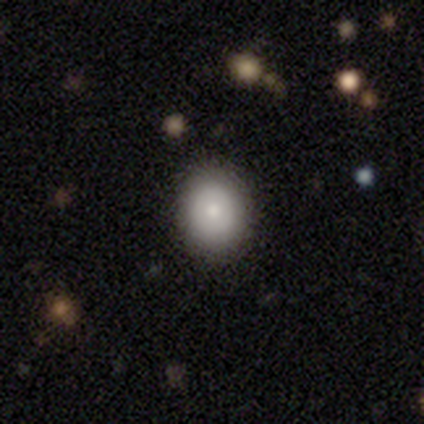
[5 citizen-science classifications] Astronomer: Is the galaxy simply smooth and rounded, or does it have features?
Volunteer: smooth — 80%.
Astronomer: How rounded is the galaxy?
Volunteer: in between — 75%.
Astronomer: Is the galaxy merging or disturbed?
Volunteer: none — 80%.